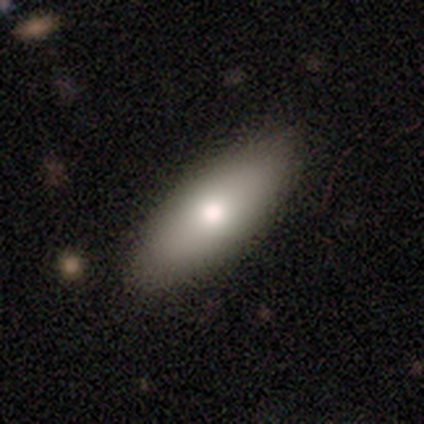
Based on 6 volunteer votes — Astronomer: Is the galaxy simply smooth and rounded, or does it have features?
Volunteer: smooth — 83%.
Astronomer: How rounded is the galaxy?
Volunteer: in between — 80%.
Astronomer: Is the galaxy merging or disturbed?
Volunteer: none — 83%.